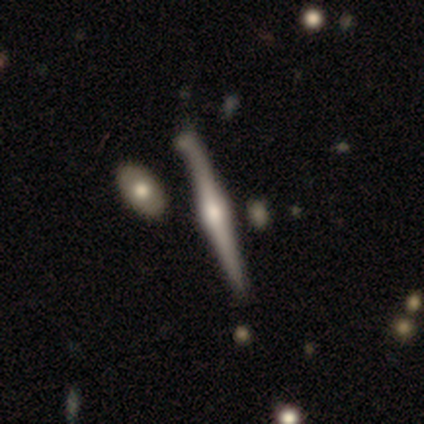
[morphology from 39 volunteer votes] Q: Smooth or featured?
A: featured or disk (79%); runner-up: smooth (18%)
Q: Edge-on disk?
A: yes (100%)
Q: Edge-on bulge?
A: rounded (84%); runner-up: none (10%)
Q: Merging?
A: none (47%); runner-up: merger (13%)